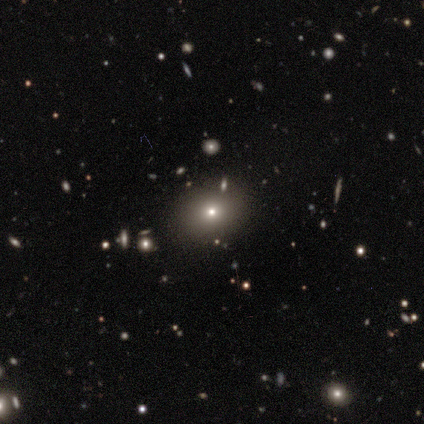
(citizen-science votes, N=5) Smooth or featured: smooth — 40% (tied with star or artifact — 40%)
How rounded: round — 100%
Merging: none — 67% (merger — 33%)